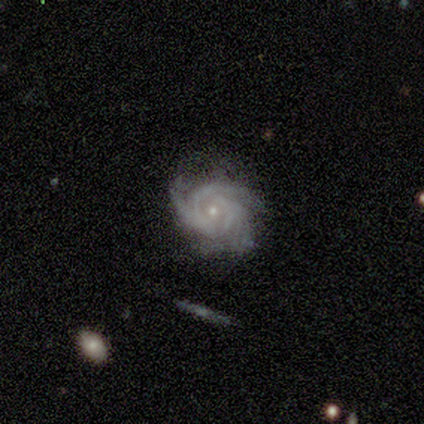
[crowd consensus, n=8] Smooth or featured: featured or disk — 62% (star or artifact — 25%)
Edge-on disk: no — 100%
Bar: no — 80% (weak — 20%)
Spiral arms: yes — 100%
Spiral winding: medium — 60% (tight — 40%)
Spiral arm count: 3 — 80% (can't tell — 20%)
Bulge size: small — 80% (moderate — 20%)
Merging: none — 67% (minor disturbance — 33%)